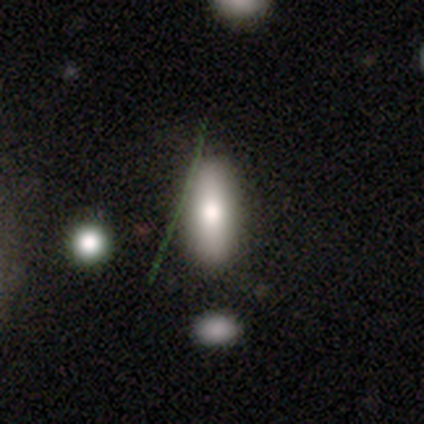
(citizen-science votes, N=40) A smooth galaxy with no disk features (57%) that is in between round and cigar-shaped (74%).

Vote fractions:
- Smooth or featured? smooth: 57% / featured or disk: 40% / star or artifact: 2%
- How rounded? in between: 74% / cigar-shaped: 26% / round: 0%
- Merging? none: 69% / minor disturbance: 8% / merger: 5% / major disturbance: 0%